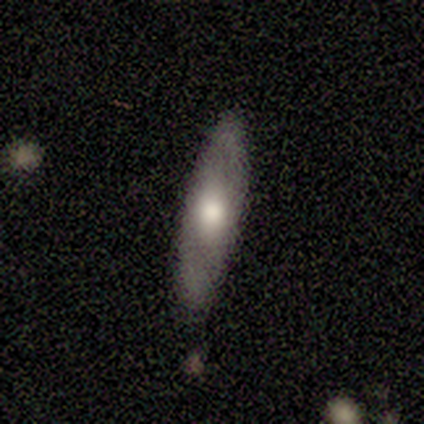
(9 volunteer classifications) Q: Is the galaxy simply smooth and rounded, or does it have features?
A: smooth — 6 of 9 (67%).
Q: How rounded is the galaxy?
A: in between — 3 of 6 (50%, tied with cigar-shaped).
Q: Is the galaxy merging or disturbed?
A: none — 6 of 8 (75%).